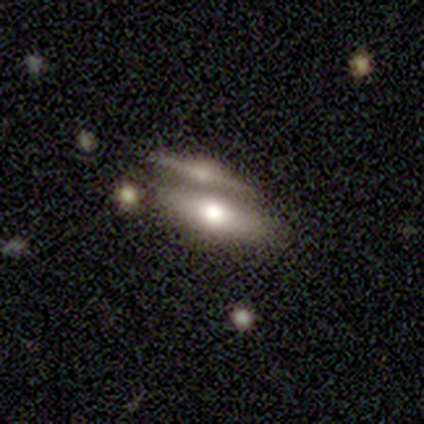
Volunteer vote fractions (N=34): Overall: featured or disk (62%; smooth 32%). Edge-on disk: yes (62%; no 38%). Edge-on bulge: rounded (92%). Merging: none (38%; merger 34%).